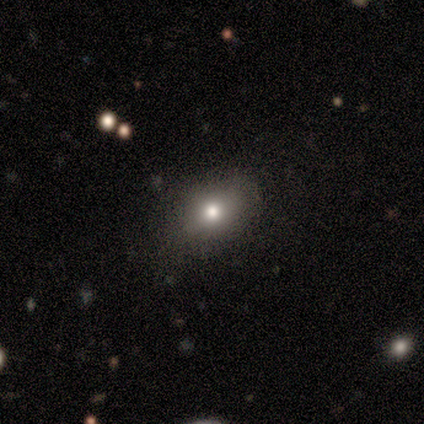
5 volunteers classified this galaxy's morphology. smooth-or-featured: smooth: 80% | star or artifact: 20% | featured or disk: 0%
  how-rounded: in between: 100% | round: 0% | cigar-shaped: 0%
  merging: none: 100% | minor disturbance: 0% | major disturbance: 0% | merger: 0%